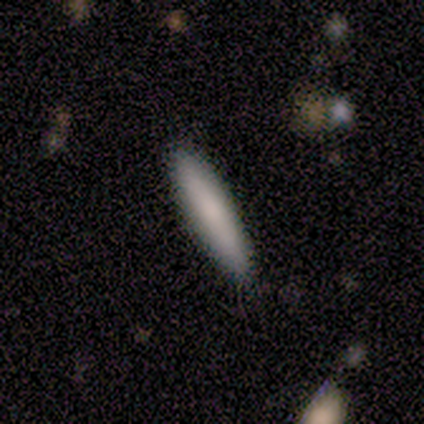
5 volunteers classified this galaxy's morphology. A smooth galaxy with no disk features (100%) that is cigar-shaped (80%). Merging: none (80%).